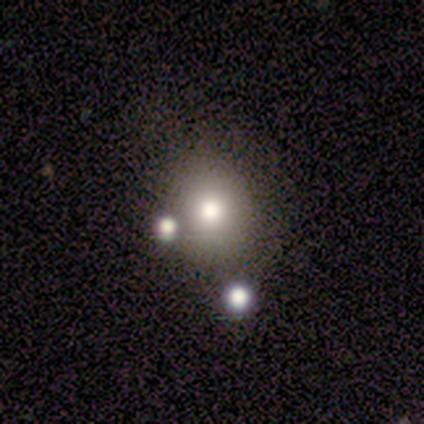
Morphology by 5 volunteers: Smooth or featured: smooth — 80% (star or artifact — 20%)
How rounded: round — 50% (tied with in between — 50%)
Merging: none — 75% (merger — 25%)